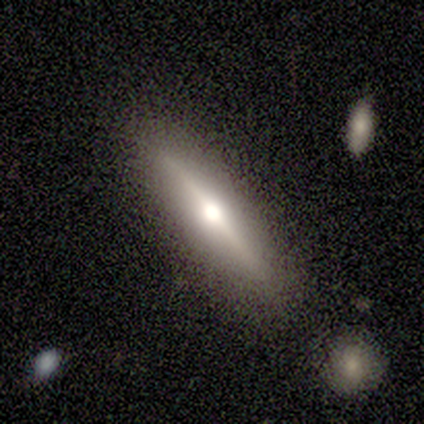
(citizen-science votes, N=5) This appears to be a smooth galaxy with no disk features (60%) that is cigar-shaped (100%). Merging: none (100%).